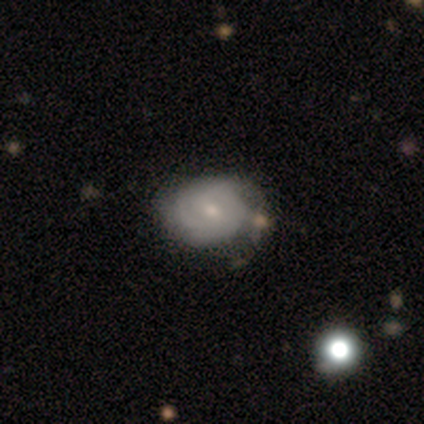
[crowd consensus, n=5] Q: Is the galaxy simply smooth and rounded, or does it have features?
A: featured or disk — 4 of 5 (80%).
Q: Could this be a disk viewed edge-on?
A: no — 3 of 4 (75%).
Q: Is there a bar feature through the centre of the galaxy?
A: weak — 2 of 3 (67%).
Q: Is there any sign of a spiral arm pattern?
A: yes — 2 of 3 (67%).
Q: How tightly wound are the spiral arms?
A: tight — 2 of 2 (100%).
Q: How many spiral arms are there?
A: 3 — 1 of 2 (50%, tied with can't tell).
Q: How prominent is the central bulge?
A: small — 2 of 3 (67%).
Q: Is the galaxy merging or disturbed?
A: minor disturbance — 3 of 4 (75%).